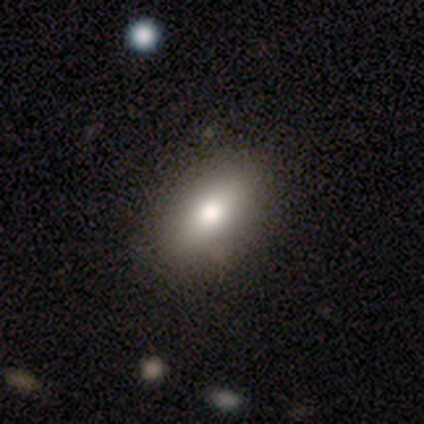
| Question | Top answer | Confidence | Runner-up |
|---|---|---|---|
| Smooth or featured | smooth | 82% | featured or disk (15%) |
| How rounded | in between | 91% | cigar-shaped (6%) |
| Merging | none | 72% | minor disturbance (5%) |